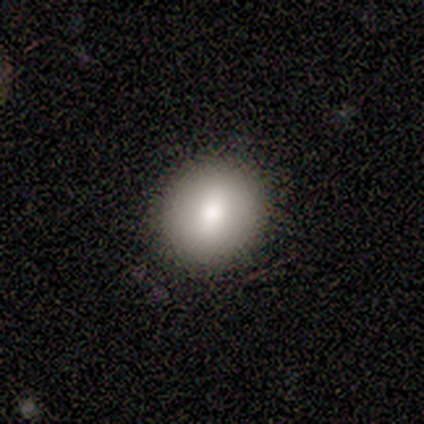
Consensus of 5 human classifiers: Morphology: type=smooth (80%); roundness=round (75%); merging=none (75%).